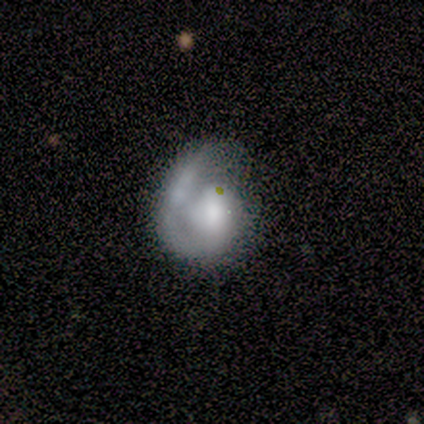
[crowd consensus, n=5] This appears to be a featured or disk galaxy (80%) with a weak bar (75%), 1 (100%) medium (50%) spiral arms (100%) and a moderate central bulge (75%). Merging: minor disturbance (60%).